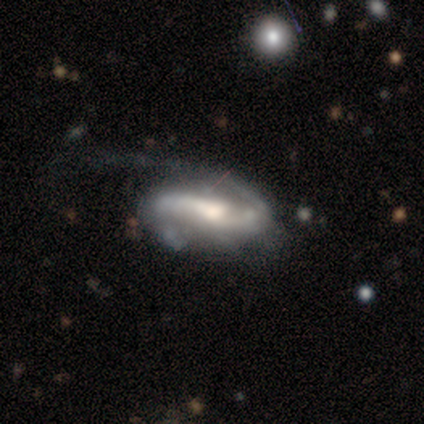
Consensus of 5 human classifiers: Smooth or featured? featured or disk (80%)
Edge-on disk? no (100%)
Bar? weak (75%)
Spiral arms? yes (100%)
Spiral winding? medium (50%)
Spiral arm count? 1 (50%)
Bulge size? large (25%, tied with moderate, small and none)
Merging? none (40%)